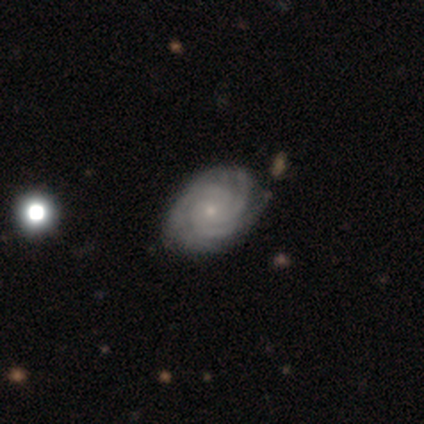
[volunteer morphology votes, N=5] smooth-or-featured: featured or disk: 80% | smooth: 20% | star or artifact: 0%
  disk-edge-on: no: 100% | yes: 0%
    bar: no: 75% | weak: 25% | strong: 0%
    has-spiral-arms: yes: 100% | no: 0%
      spiral-winding: tight: 75% | medium: 25% | loose: 0%
      spiral-arm-count: 3: 75% | 4: 25% | 1: 0% | 2: 0% | more than 4: 0% | can't tell: 0%
    bulge-size: small: 75% | moderate: 25% | dominant: 0% | large: 0% | none: 0%
  merging: none: 80% | minor disturbance: 20% | major disturbance: 0% | merger: 0%